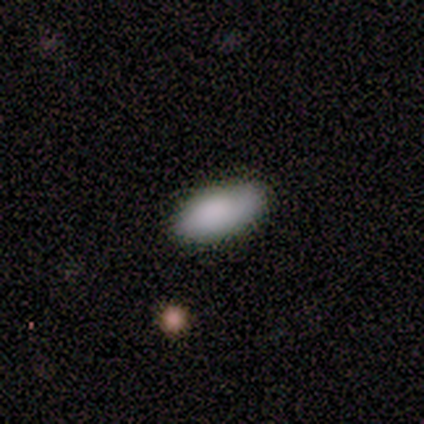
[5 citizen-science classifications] Smooth or featured?
  - smooth: 80% *
  - star or artifact: 20%
  - featured or disk: 0%
How rounded?
  - in between: 100% *
  - round: 0%
  - cigar-shaped: 0%
Merging?
  - none: 100% *
  - minor disturbance: 0%
  - major disturbance: 0%
  - merger: 0%